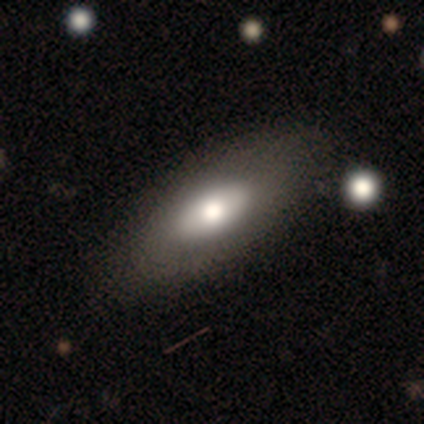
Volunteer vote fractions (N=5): This appears to be a smooth galaxy with no disk features (80%) that is in between round and cigar-shaped (100%). Merging: none (100%).